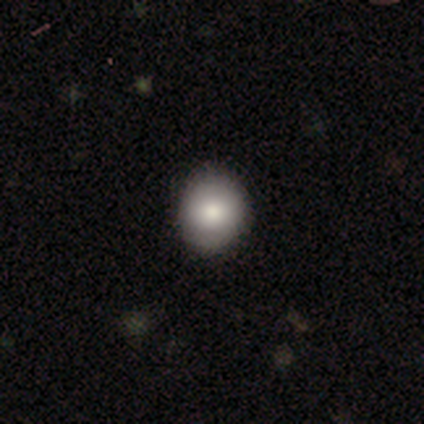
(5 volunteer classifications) Smooth or featured?
  - smooth: 80% *
  - star or artifact: 20%
  - featured or disk: 0%
How rounded?
  - round: 75% *
  - in between: 25%
  - cigar-shaped: 0%
Merging?
  - none: 100% *
  - minor disturbance: 0%
  - major disturbance: 0%
  - merger: 0%